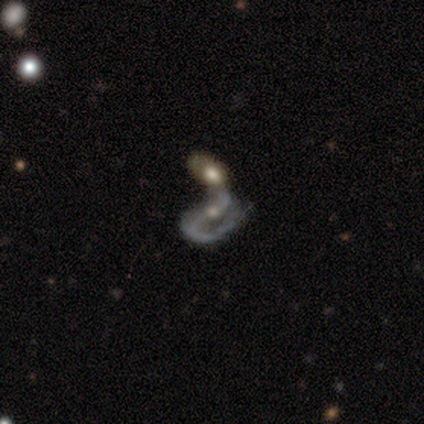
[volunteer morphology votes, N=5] smooth_or_featured: featured or disk (p=1.00)
disk_edge_on: no (p=1.00)
bar: strong (p=0.60) [alt: no p=0.40]
has_spiral_arms: yes (p=0.80) [alt: no p=0.20]
spiral_winding: medium (p=0.50) [tied with: loose p=0.50]
spiral_arm_count: 2 (p=1.00)
bulge_size: moderate (p=0.60) [alt: small p=0.40]
merging: merger (p=0.80) [alt: none p=0.20]